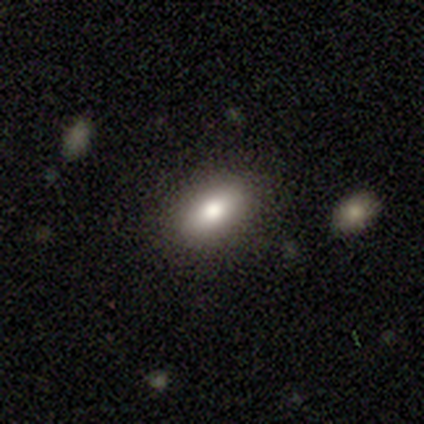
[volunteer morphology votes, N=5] smooth 60%, featured or disk 40%, star or artifact 0%. Down the decision tree: how rounded — in between (100%); merging — none (80%).